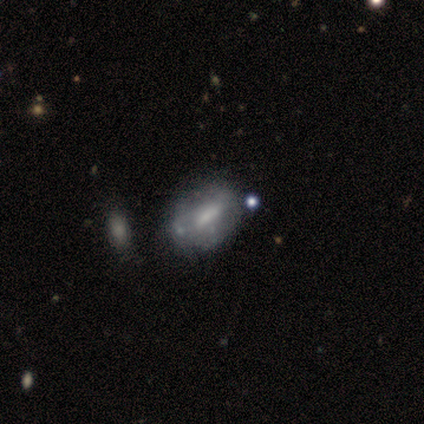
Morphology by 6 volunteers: smooth 67%, featured or disk 33%, star or artifact 0%. Down the decision tree: how rounded — in between (75%); merging — none (67%).